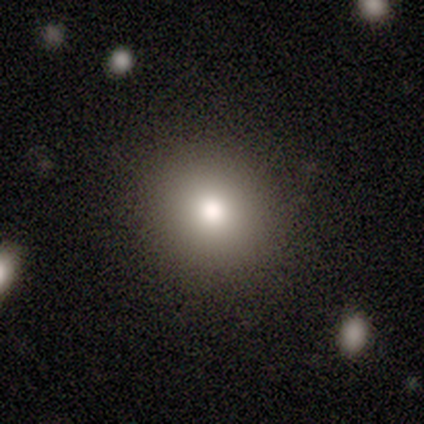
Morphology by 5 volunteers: This appears to be a smooth galaxy with no disk features (80%) that is round (100%). Merging: none (100%).